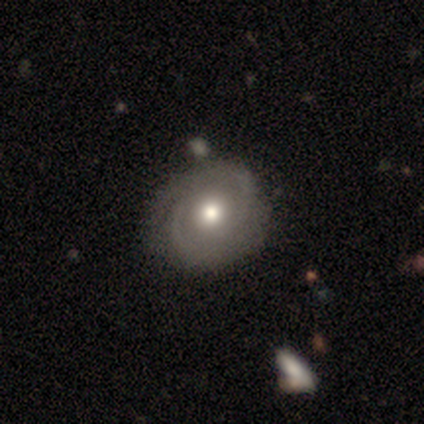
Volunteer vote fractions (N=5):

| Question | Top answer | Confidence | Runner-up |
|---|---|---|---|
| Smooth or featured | featured or disk | 80% | smooth (20%) |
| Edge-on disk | no | 100% | — |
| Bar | no | 100% | — |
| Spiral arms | yes | 100% | — |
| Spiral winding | tight | 100% | — |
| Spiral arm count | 2 | 75% | 1 (25%) |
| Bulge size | moderate | 75% | large (25%) |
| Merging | none | 80% | merger (20%) |